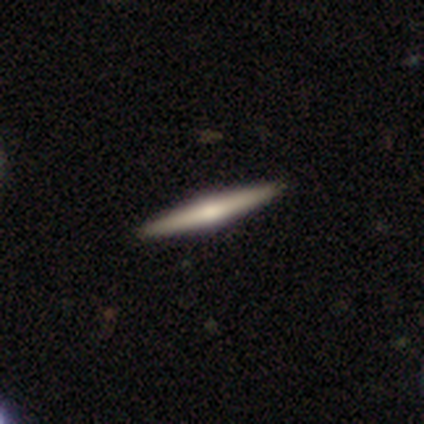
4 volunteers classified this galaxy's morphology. This appears to be a featured or disk galaxy (75%) viewed edge-on (100%) with a rounded central bulge (67%). Merging: none (100%).